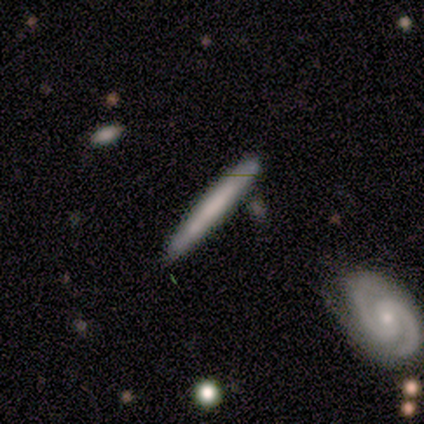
Smooth or featured?
  - smooth: 80% *
  - featured or disk: 20%
  - star or artifact: 0%
How rounded?
  - cigar-shaped: 100% *
  - round: 0%
  - in between: 0%
Merging?
  - none: 80% *
  - minor disturbance: 20%
  - major disturbance: 0%
  - merger: 0%